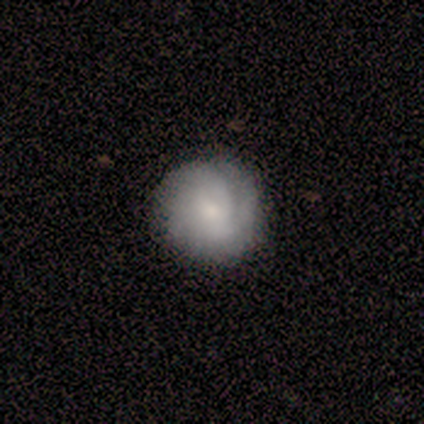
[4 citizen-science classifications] Smooth or featured: smooth — 50% (tied with featured or disk — 50%)
How rounded: round — 100%
Merging: none — 100%